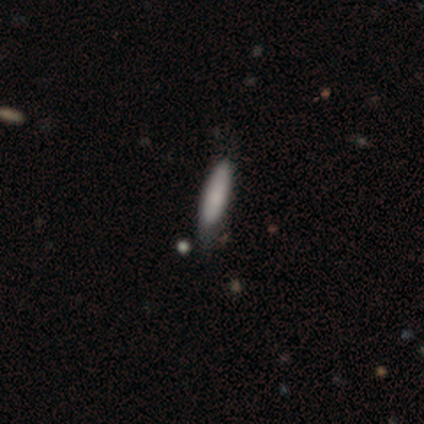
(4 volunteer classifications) A smooth galaxy with no disk features (75%) that is cigar-shaped (67%). Merging: minor disturbance (50%).